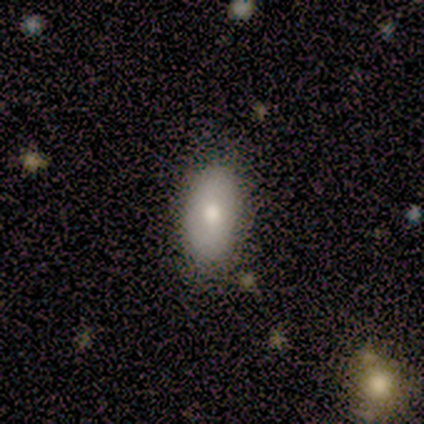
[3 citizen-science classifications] smooth 67%, featured or disk 33%, star or artifact 0%. Down the decision tree: how rounded — in between (100%); merging — none (100%).